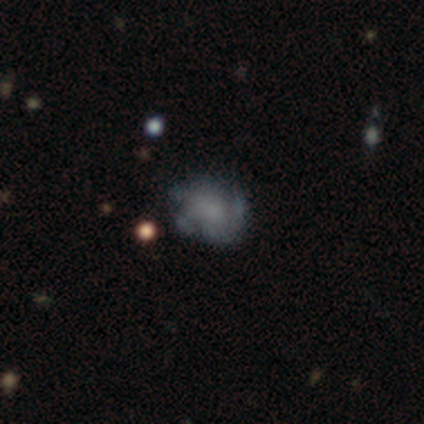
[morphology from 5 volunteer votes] This is likely a featured or disk galaxy (60%). It is clearly not viewed edge-on (100%). Bar: likely no (67%). Spiral arm pattern: clearly no (100%). Central bulge: likely none (67%). Merging: likely none (60%).